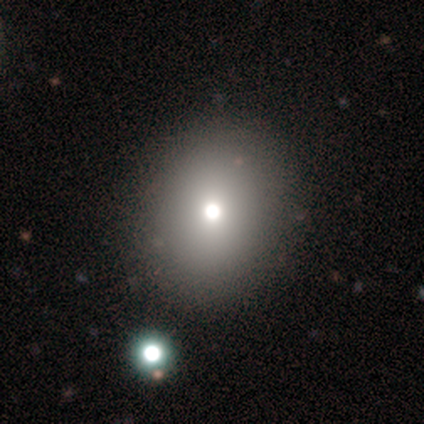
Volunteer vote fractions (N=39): Smooth or featured? 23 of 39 (59%) said smooth. How rounded? 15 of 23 (65%) said round. Merging? 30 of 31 (97%) said none.